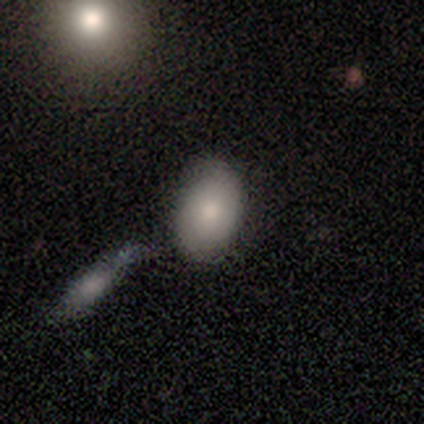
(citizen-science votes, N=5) smooth_or_featured: smooth (p=0.80) [alt: featured or disk p=0.20]
how_rounded: in between (p=0.75) [alt: round p=0.25]
merging: none (p=0.60) [alt: merger p=0.40]